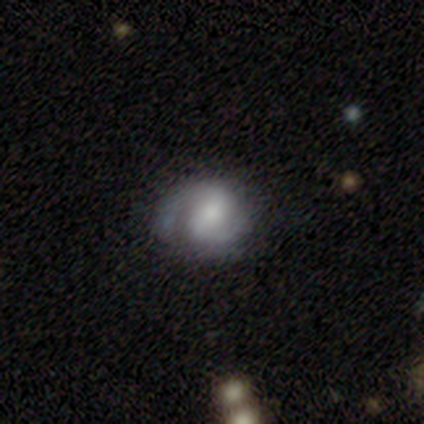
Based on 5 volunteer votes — smooth_or_featured: smooth (p=0.40) [tied with: featured or disk p=0.40]
how_rounded: in between (p=1.00)
merging: minor disturbance (p=0.50) [alt: none p=0.25]